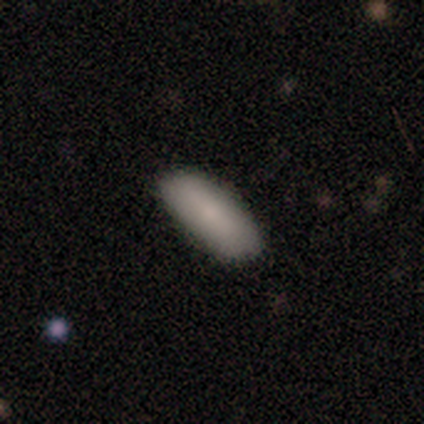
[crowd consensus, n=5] smooth-or-featured: smooth: 80% | featured or disk: 20% | star or artifact: 0%
  how-rounded: in between: 100% | round: 0% | cigar-shaped: 0%
  merging: none: 80% | minor disturbance: 20% | major disturbance: 0% | merger: 0%